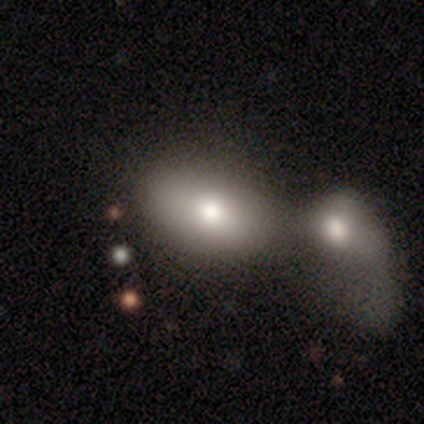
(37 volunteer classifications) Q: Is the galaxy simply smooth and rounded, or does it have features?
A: smooth — 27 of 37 (73%).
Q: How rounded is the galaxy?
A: in between — 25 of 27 (93%).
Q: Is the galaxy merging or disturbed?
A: merger — 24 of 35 (69%).